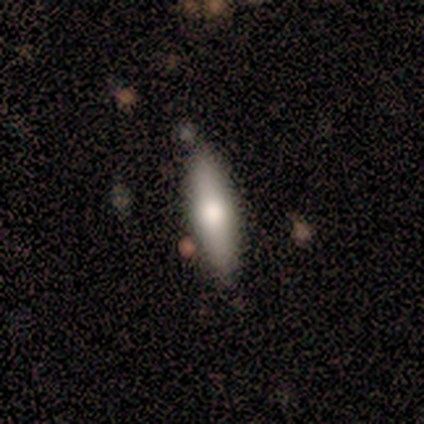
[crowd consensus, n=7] smooth 86%, featured or disk 14%, star or artifact 0%. Down the decision tree: how rounded — cigar-shaped (67%); merging — none (43%).